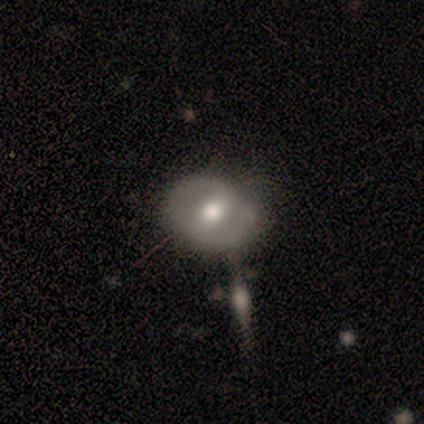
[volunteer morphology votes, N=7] A smooth galaxy with no disk features (57%) that is in between round and cigar-shaped (75%).

Vote fractions:
- Smooth or featured? smooth: 57% / featured or disk: 43% / star or artifact: 0%
- How rounded? in between: 75% / round: 25% / cigar-shaped: 0%
- Merging? none: 71% / minor disturbance: 29% / major disturbance: 0% / merger: 0%